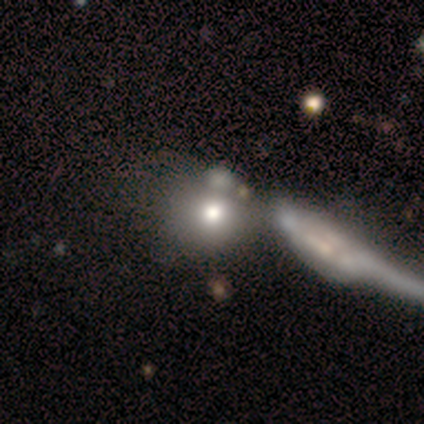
This is likely a smooth galaxy (60%). How rounded: likely round (67%). Merging: clearly merger (80%).